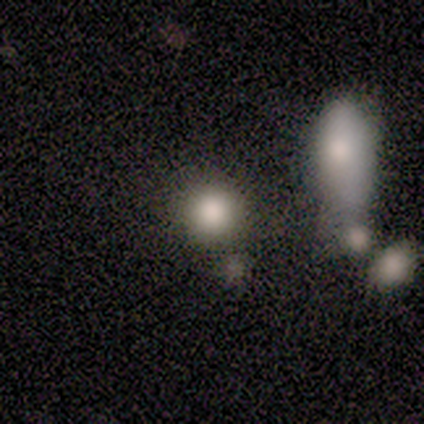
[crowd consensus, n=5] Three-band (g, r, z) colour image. It shows a smooth galaxy with no disk features (40%, tied with featured or disk) that is round (100%). Merging: none (50%, tied with merger).